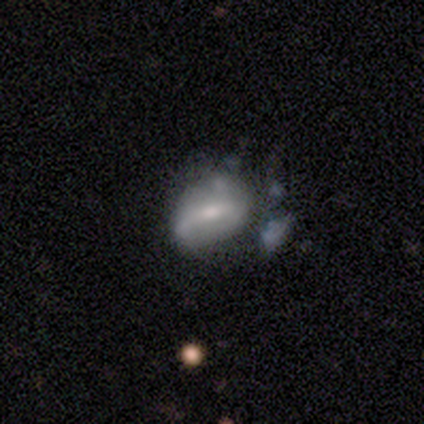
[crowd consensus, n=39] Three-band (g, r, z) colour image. It shows a featured or disk galaxy (56%) with a weak bar (50%), no spiral arms (60%) and a small central bulge (55%). Merging: none (36%).